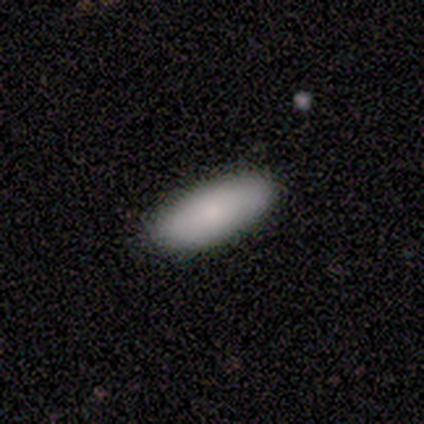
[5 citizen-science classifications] This is clearly a smooth galaxy (100%). How rounded: clearly in between (100%). Merging: clearly none (100%).